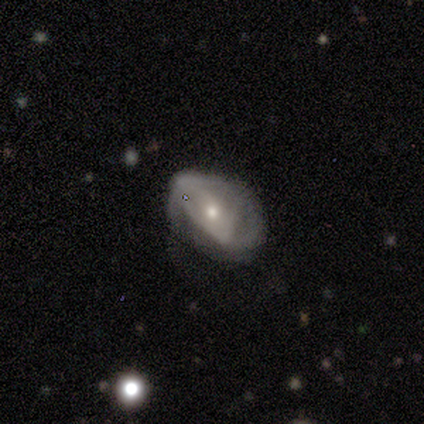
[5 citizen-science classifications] Smooth or featured: featured or disk — 100%
Edge-on disk: no — 100%
Bar: no — 100%
Spiral arms: yes — 80% (no — 20%)
Spiral winding: tight — 100%
Spiral arm count: 2 — 50% (tied with can't tell — 50%)
Bulge size: small — 80% (moderate — 20%)
Merging: none — 100%